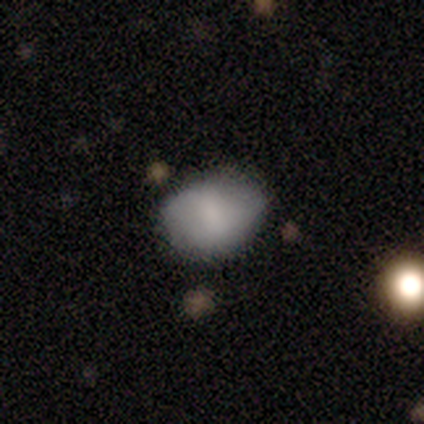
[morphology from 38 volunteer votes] smooth_or_featured: smooth (p=0.71) [alt: featured or disk p=0.21]
how_rounded: in between (p=0.67) [alt: round p=0.33]
merging: none (p=0.66) [alt: minor disturbance p=0.20]